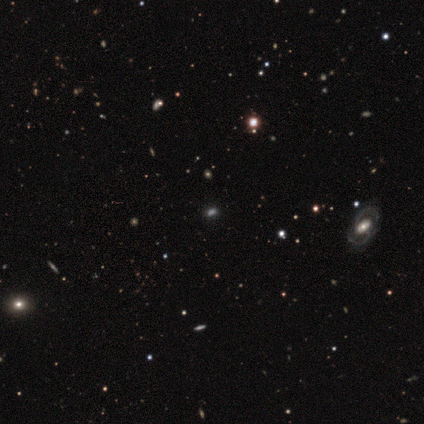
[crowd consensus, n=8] A smooth galaxy with no disk features (38%, tied with star or artifact) that is in between round and cigar-shaped (100%). Merging: none (80%).